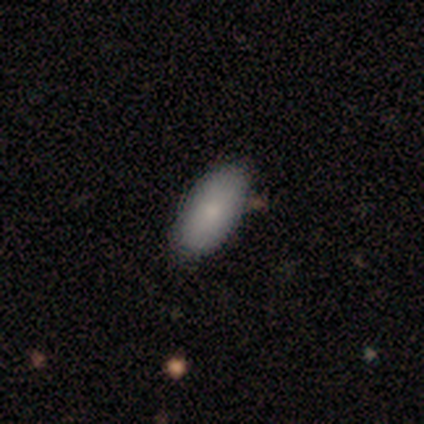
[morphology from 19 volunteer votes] Smooth or featured: smooth — 89% (featured or disk — 11%)
How rounded: in between — 100%
Merging: none — 89% (minor disturbance — 11%)